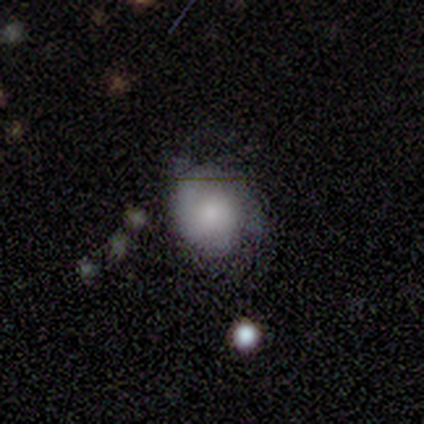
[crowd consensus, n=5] smooth-or-featured: featured or disk: 60% | smooth: 20% | star or artifact: 20%
  disk-edge-on: no: 100% | yes: 0%
    bar: no: 67% | strong: 33% | weak: 0%
    has-spiral-arms: yes: 67% | no: 33%
      spiral-winding: medium: 100% | tight: 0% | loose: 0%
      spiral-arm-count: 2: 50% (tied) | 3: 50% (tied) | 1: 0% | 4: 0% | more than 4: 0% | can't tell: 0%
    bulge-size: large: 67% | small: 33% | dominant: 0% | moderate: 0% | none: 0%
  merging: none: 75% | major disturbance: 25% | minor disturbance: 0% | merger: 0%